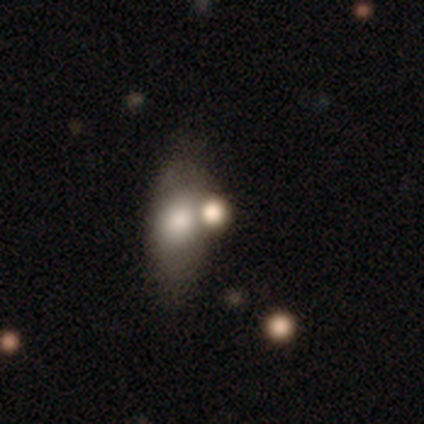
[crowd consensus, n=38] smooth_or_featured: smooth (p=0.63) [alt: featured or disk p=0.32]
how_rounded: in between (p=0.79) [alt: round p=0.12]
merging: none (p=0.47) [alt: merger p=0.44]